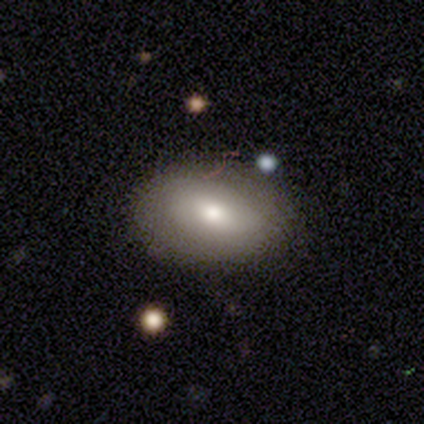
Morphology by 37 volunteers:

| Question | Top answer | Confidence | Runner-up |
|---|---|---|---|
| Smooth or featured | smooth | 73% | featured or disk (24%) |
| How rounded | in between | 93% | round (7%) |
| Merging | none | 81% | minor disturbance (17%) |